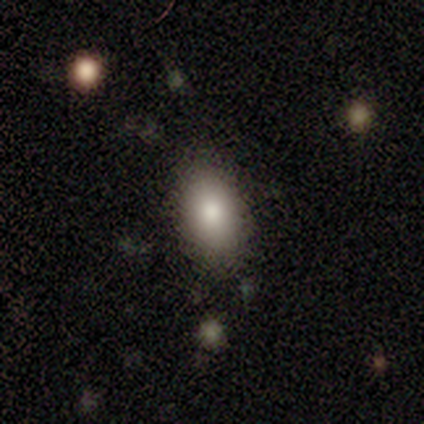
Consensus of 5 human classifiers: Smooth or featured?
  - smooth: 60% *
  - featured or disk: 20%
  - star or artifact: 20%
How rounded?
  - in between: 100% *
  - round: 0%
  - cigar-shaped: 0%
Merging?
  - none: 75% *
  - minor disturbance: 25%
  - major disturbance: 0%
  - merger: 0%